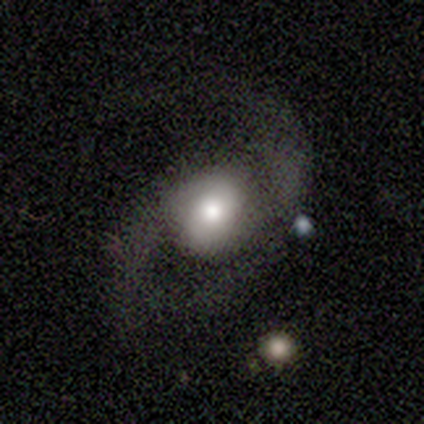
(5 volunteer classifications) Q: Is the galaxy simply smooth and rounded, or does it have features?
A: featured or disk — 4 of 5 (80%).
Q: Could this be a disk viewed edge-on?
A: no — 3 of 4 (75%).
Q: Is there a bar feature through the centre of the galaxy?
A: no — 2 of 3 (67%).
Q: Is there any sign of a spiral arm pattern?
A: yes — 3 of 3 (100%).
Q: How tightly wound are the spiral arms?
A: loose — 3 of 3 (100%).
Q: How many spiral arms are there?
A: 2 — 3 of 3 (100%).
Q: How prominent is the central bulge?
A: moderate — 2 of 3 (67%).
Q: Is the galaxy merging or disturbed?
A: none — 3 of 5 (60%).